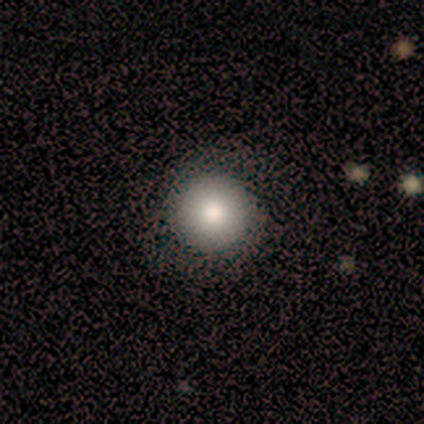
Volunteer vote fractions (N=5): featured or disk 60%, smooth 40%, star or artifact 0%. Down the decision tree: edge-on disk — no (67%); bar — no (100%); spiral arms — no (100%); bulge size — moderate (100%); merging — none (100%).